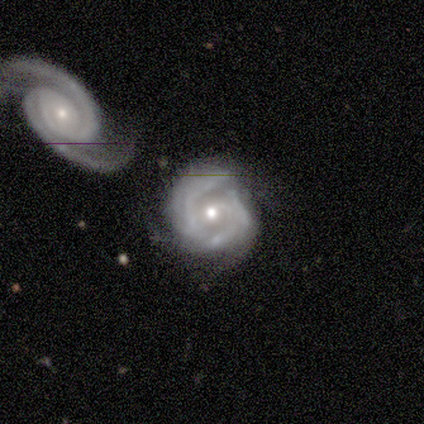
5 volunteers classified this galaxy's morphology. This appears to be a featured or disk galaxy (100%) with no bar (100%), 2 (40%, tied with 3) tight (80%) spiral arms (100%) and a small central bulge (60%). Merging: none (60%).